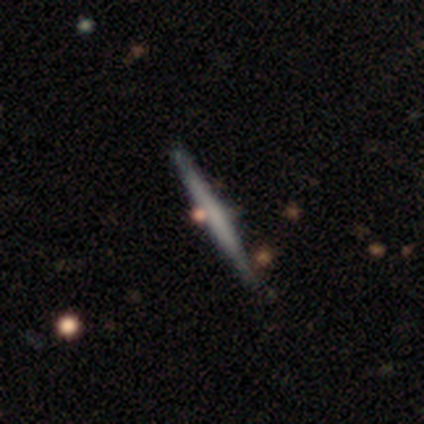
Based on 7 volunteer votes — Q: Smooth or featured?
A: smooth (57%); runner-up: featured or disk (43%)
Q: How rounded?
A: cigar-shaped (100%)
Q: Merging?
A: none (71%); runner-up: minor disturbance (29%)